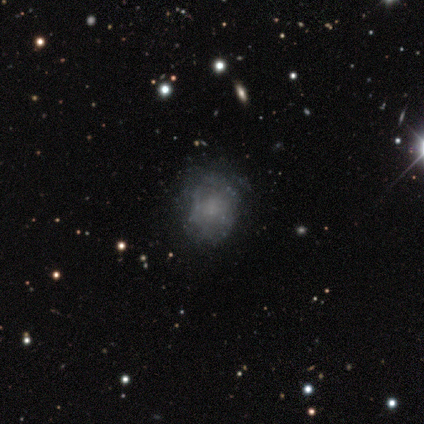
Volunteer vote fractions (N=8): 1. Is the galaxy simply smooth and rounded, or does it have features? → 62% featured or disk, 25% smooth, 12% star or artifact.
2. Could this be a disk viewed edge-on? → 100% no, 0% yes.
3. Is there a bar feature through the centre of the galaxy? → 80% no, 20% weak, 0% strong.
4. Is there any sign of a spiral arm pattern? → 80% yes, 20% no.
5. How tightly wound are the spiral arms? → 75% tight, 25% loose, 0% medium.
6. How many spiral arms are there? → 75% can't tell, 25% 3, 0% 1, 0% 2, 0% 4, 0% more than 4.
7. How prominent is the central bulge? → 80% none, 20% small, 0% dominant, 0% large, 0% moderate.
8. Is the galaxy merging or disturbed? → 57% none, 43% minor disturbance, 0% major disturbance, 0% merger.